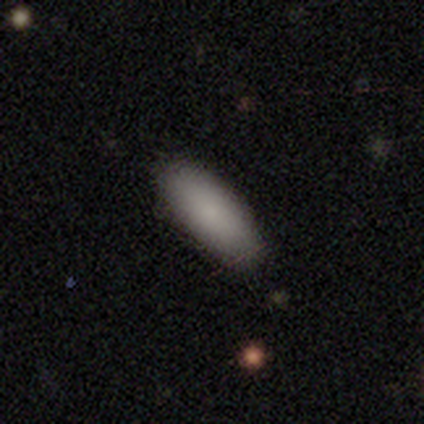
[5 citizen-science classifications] This is clearly a smooth galaxy (80%). How rounded: clearly in between (100%). Merging: clearly none (80%).